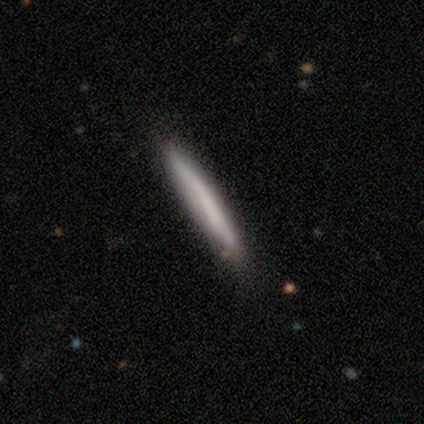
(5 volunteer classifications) Q: Smooth or featured?
A: smooth (80%); runner-up: featured or disk (20%)
Q: How rounded?
A: cigar-shaped (100%)
Q: Merging?
A: none (60%); runner-up: minor disturbance (40%)